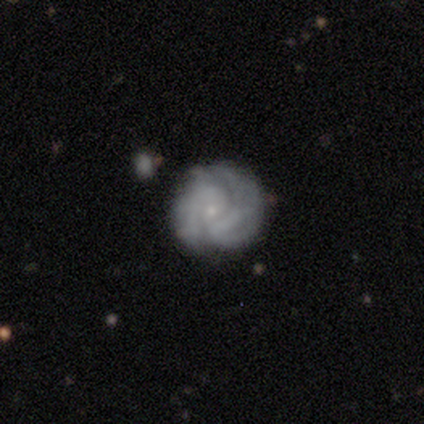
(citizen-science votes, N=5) Smooth or featured: featured or disk — 80% (smooth — 20%)
Edge-on disk: no — 100%
Bar: no — 100%
Spiral arms: yes — 75% (no — 25%)
Spiral winding: tight — 100%
Spiral arm count: can't tell — 67% (3 — 33%)
Bulge size: small — 100%
Merging: none — 40% (tied with minor disturbance — 40%)